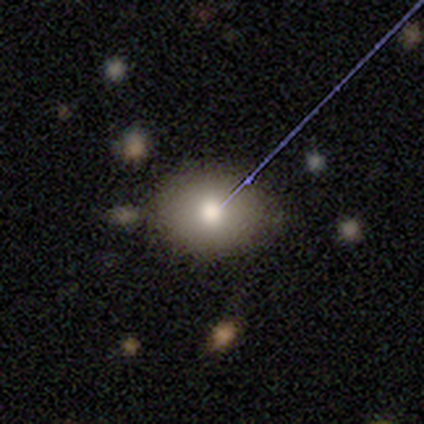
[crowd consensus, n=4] Smooth or featured? 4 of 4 (100%) said smooth. How rounded? 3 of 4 (75%) said round. Merging? 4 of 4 (100%) said none.